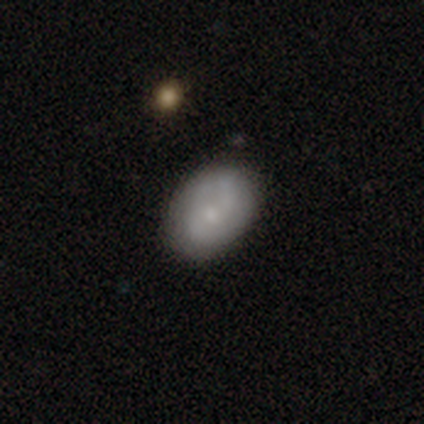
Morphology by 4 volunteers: A smooth galaxy with no disk features (50%) that is round (50%, tied with in between). Merging: none (67%).